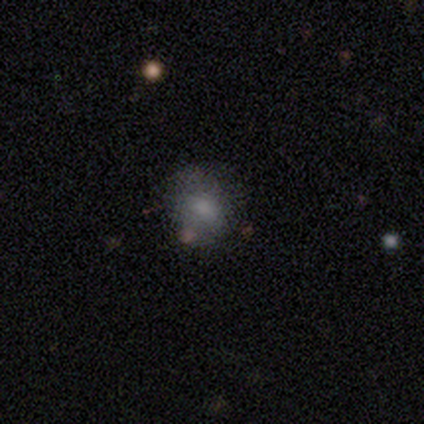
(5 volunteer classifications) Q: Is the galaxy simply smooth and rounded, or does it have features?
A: smooth — 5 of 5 (100%).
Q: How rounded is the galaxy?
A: round — 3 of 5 (60%).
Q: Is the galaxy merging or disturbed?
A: none — 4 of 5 (80%).